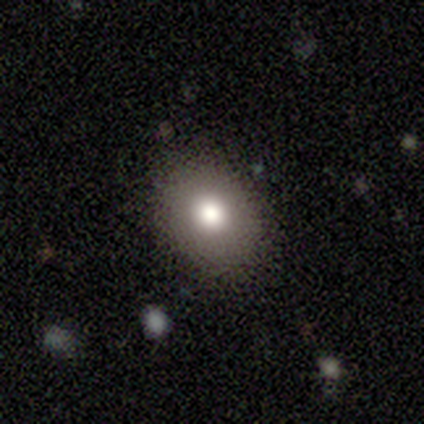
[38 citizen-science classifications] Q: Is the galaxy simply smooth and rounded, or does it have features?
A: smooth — 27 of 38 (71%).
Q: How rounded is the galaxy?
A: in between — 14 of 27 (52%).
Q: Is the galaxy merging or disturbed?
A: none — 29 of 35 (83%).